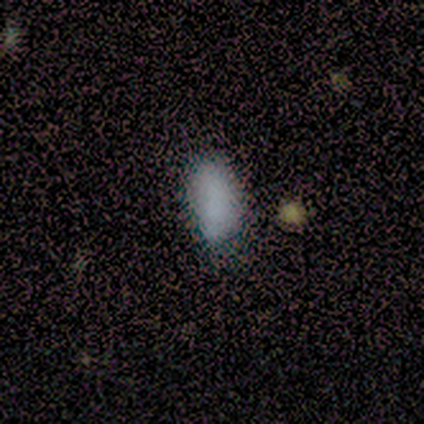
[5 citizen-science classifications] smooth-or-featured: smooth: 80% | star or artifact: 20% | featured or disk: 0%
  how-rounded: in between: 100% | round: 0% | cigar-shaped: 0%
  merging: none: 100% | minor disturbance: 0% | major disturbance: 0% | merger: 0%